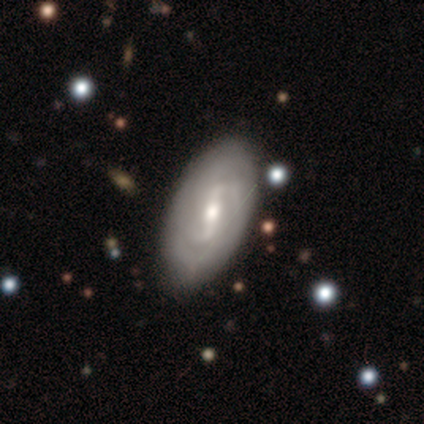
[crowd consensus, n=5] smooth-or-featured: featured or disk: 80% | smooth: 20% | star or artifact: 0%
  disk-edge-on: no: 100% | yes: 0%
    bar: weak: 100% | strong: 0% | no: 0%
    has-spiral-arms: yes: 100% | no: 0%
      spiral-winding: medium: 50% | tight: 25% | loose: 25%
      spiral-arm-count: 2: 50% (tied) | can't tell: 50% (tied) | 1: 0% | 3: 0% | 4: 0% | more than 4: 0%
    bulge-size: moderate: 50% (tied) | small: 50% (tied) | dominant: 0% | large: 0% | none: 0%
  merging: none: 60% | minor disturbance: 20% | major disturbance: 20% | merger: 0%